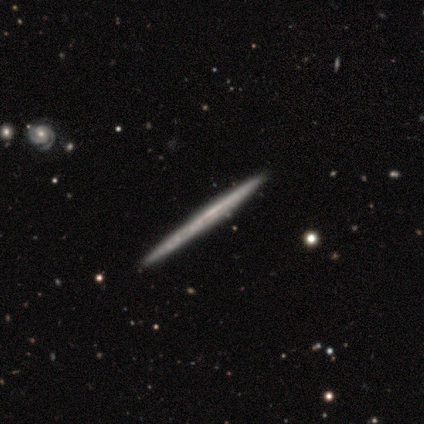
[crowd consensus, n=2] smooth_or_featured: featured or disk (p=1.00)
disk_edge_on: yes (p=1.00)
edge_on_bulge: none (p=1.00)
merging: none (p=1.00)